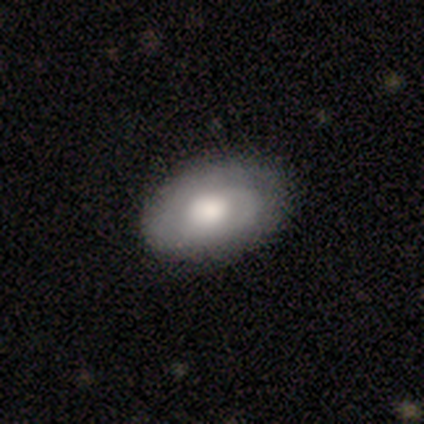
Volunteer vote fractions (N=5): This is likely a smooth galaxy (60%). How rounded: likely in between (67%). Merging: clearly none (80%).